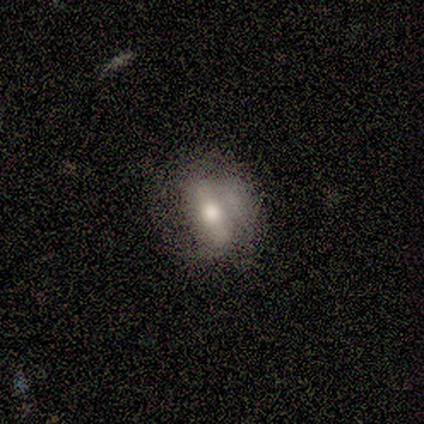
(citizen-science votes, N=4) Q: Smooth or featured?
A: featured or disk (75%); runner-up: smooth (25%)
Q: Edge-on disk?
A: no (100%)
Q: Bar?
A: strong (33%); tied with: weak (33%); no (33%)
Q: Spiral arms?
A: no (67%); runner-up: yes (33%)
Q: Bulge size?
A: small (67%); runner-up: moderate (33%)
Q: Merging?
A: none (50%); tied with: minor disturbance (50%)